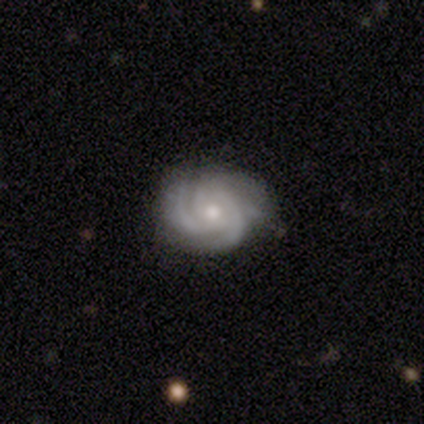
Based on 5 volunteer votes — Smooth or featured: featured or disk — 100%
Edge-on disk: no — 100%
Bar: no — 100%
Spiral arms: yes — 100%
Spiral winding: tight — 60% (medium — 40%)
Spiral arm count: 3 — 60% (4 — 20%)
Bulge size: moderate — 60% (small — 40%)
Merging: none — 80% (minor disturbance — 20%)